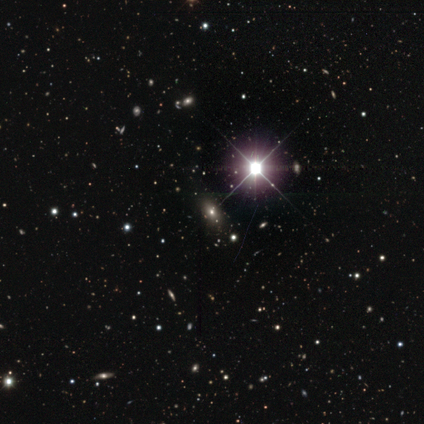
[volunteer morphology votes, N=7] A star or artifact, not a galaxy (57%).